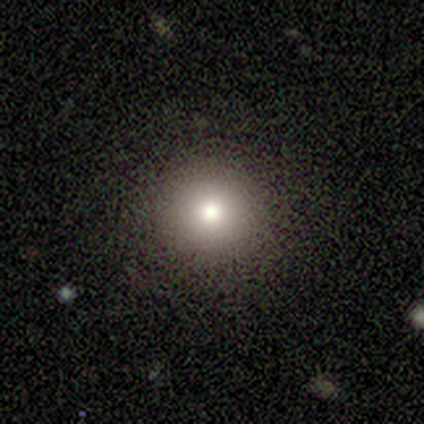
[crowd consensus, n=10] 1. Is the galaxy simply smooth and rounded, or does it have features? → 80% smooth, 10% featured or disk, 10% star or artifact.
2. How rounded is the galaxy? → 100% round, 0% in between, 0% cigar-shaped.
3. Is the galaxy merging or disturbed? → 78% none, 11% minor disturbance, 11% major disturbance, 0% merger.